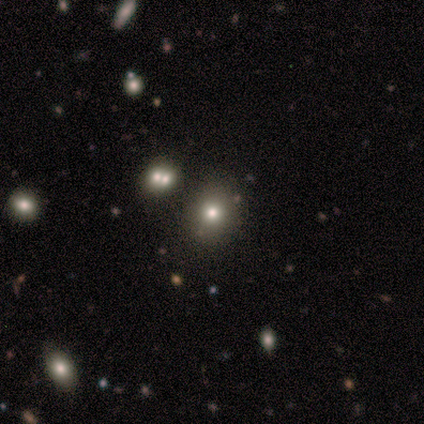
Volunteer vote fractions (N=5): smooth-or-featured: smooth: 80% | star or artifact: 20% | featured or disk: 0%
  how-rounded: round: 75% | in between: 25% | cigar-shaped: 0%
  merging: none: 75% | minor disturbance: 25% | major disturbance: 0% | merger: 0%